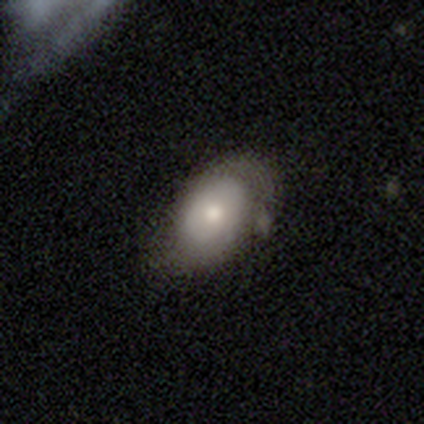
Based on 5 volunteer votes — Q: Smooth or featured?
A: smooth (80%); runner-up: featured or disk (20%)
Q: How rounded?
A: in between (100%)
Q: Merging?
A: none (60%); runner-up: minor disturbance (20%)